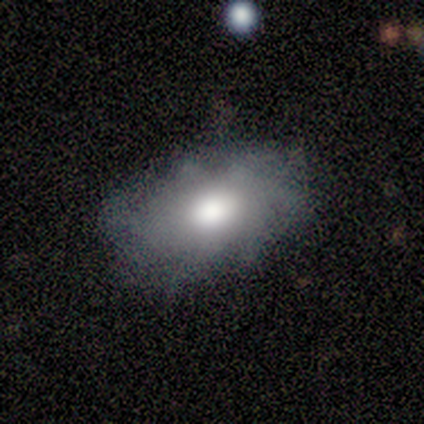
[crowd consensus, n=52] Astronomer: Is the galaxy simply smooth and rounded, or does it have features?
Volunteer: smooth — 50% (runner-up: featured or disk, 48%).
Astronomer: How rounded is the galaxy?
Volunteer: in between — 96%.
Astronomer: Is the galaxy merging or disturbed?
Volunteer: none — 59% (runner-up: minor disturbance, 37%).